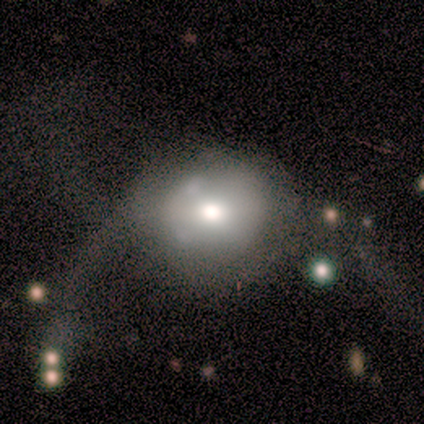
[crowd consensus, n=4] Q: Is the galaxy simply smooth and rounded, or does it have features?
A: smooth — 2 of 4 (50%, tied with star or artifact).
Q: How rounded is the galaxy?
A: round — 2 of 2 (100%).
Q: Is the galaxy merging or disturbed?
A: none — 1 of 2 (50%, tied with major disturbance).